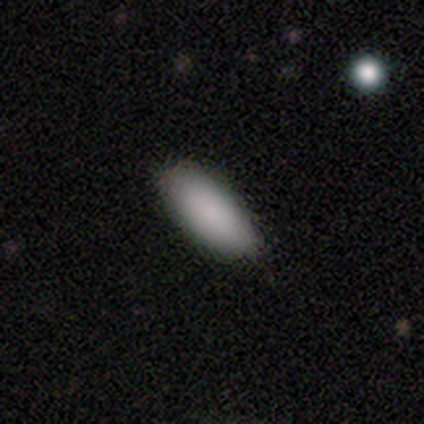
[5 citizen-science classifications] A smooth galaxy with no disk features (80%) that is in between round and cigar-shaped (50%, tied with cigar-shaped).

Vote fractions:
- Smooth or featured? smooth: 80% / featured or disk: 20% / star or artifact: 0%
- How rounded? in between: 50% (tied) / cigar-shaped: 50% (tied) / round: 0%
- Merging? none: 80% / minor disturbance: 20% / major disturbance: 0% / merger: 0%